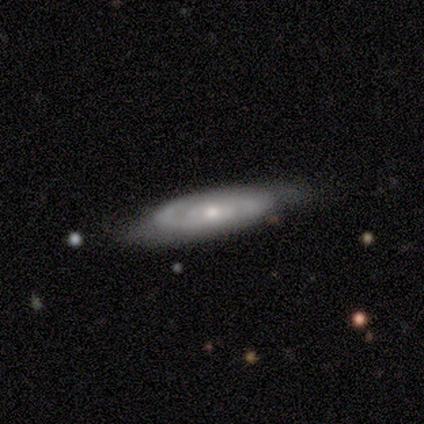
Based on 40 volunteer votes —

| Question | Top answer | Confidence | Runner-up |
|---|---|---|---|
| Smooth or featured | featured or disk | 72% | smooth (28%) |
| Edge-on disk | no | 93% | yes (7%) |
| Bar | no | 70% | weak (26%) |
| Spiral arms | yes | 85% | no (15%) |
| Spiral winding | tight | 65% | medium (26%) |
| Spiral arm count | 2 | 57% | can't tell (39%) |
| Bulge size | moderate | 52% | small (48%) |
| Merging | none | 70% | minor disturbance (22%) |